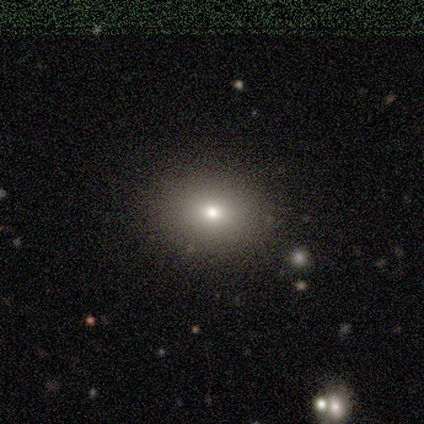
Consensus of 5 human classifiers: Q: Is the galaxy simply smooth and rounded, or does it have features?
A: smooth — 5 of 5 (100%).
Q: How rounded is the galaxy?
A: in between — 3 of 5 (60%).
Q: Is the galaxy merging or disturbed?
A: none — 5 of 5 (100%).